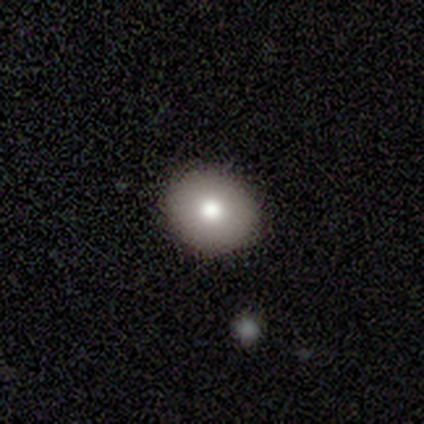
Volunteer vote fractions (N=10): Morphology: type=smooth (80%); roundness=round (62%); merging=none (89%).